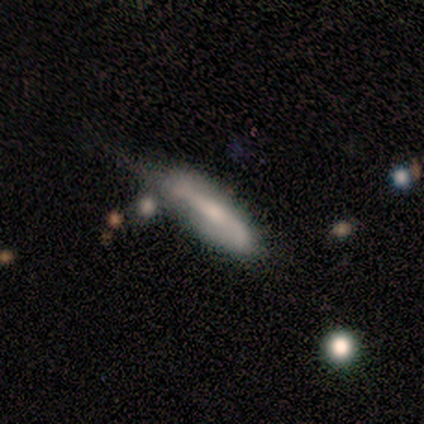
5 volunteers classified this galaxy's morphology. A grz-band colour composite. It shows a smooth galaxy with no disk features (80%) that is in between round and cigar-shaped (50%, tied with cigar-shaped). Merging: minor disturbance (40%, tied with merger).